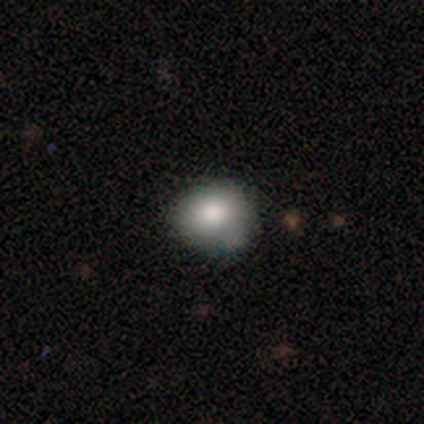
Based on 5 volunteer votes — Smooth or featured?
  - smooth: 100% *
  - featured or disk: 0%
  - star or artifact: 0%
How rounded?
  - in between: 60% *
  - round: 40%
  - cigar-shaped: 0%
Merging?
  - none: 60% *
  - minor disturbance: 20%
  - merger: 20%
  - major disturbance: 0%